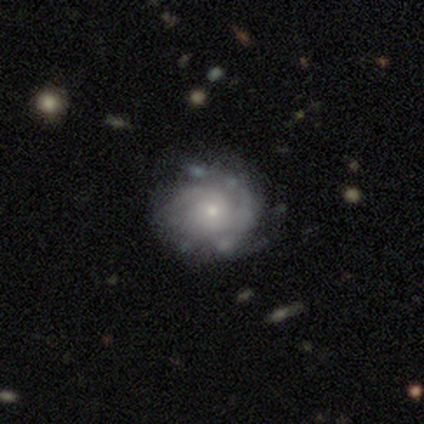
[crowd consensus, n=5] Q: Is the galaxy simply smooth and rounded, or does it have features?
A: featured or disk — 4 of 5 (80%).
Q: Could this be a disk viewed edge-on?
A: no — 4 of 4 (100%).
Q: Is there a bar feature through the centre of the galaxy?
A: no — 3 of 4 (75%).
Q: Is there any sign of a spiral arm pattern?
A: yes — 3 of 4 (75%).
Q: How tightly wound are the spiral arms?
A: medium — 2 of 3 (67%).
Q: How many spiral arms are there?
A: can't tell — 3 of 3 (100%).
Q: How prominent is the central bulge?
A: small — 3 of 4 (75%).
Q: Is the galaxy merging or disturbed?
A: none — 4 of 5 (80%).